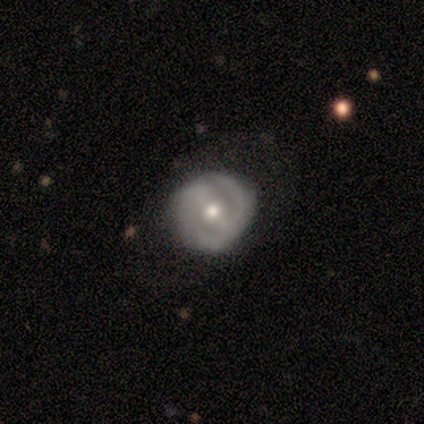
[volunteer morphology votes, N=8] Smooth or featured?
  - featured or disk: 75% *
  - smooth: 25%
  - star or artifact: 0%
Edge-on disk?
  - no: 100% *
  - yes: 0%
Bar?
  - weak: 50% *
  - strong: 33%
  - no: 17%
Spiral arms?
  - yes: 83% *
  - no: 17%
Spiral winding?
  - tight: 80% *
  - medium: 20%
  - loose: 0%
Spiral arm count?
  - 2: 80% *
  - 3: 20%
  - 1: 0%
  - 4: 0%
  - more than 4: 0%
  - can't tell: 0%
Bulge size?
  - small: 67% *
  - moderate: 33%
  - dominant: 0%
  - large: 0%
  - none: 0%
Merging?
  - none: 100% *
  - minor disturbance: 0%
  - major disturbance: 0%
  - merger: 0%